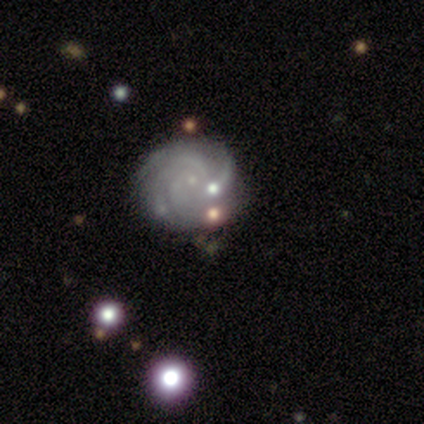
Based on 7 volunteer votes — A featured or disk galaxy (71%) with no bar (100%), 3 (40%, tied with can't tell) tight (60%) spiral arms (100%) and a small central bulge (100%).

Vote fractions:
- Smooth or featured? featured or disk: 71% / smooth: 14% / star or artifact: 14%
- Edge-on disk? no: 100% / yes: 0%
- Bar? no: 100% / strong: 0% / weak: 0%
- Spiral arms? yes: 100% / no: 0%
- Spiral winding? tight: 60% / medium: 40% / loose: 0%
- Spiral arm count? 3: 40% (tied) / can't tell: 40% (tied) / 4: 20% / 1: 0% / 2: 0% / more than 4: 0%
- Bulge size? small: 100% / dominant: 0% / large: 0% / moderate: 0% / none: 0%
- Merging? none: 50% / merger: 33% / minor disturbance: 17% / major disturbance: 0%